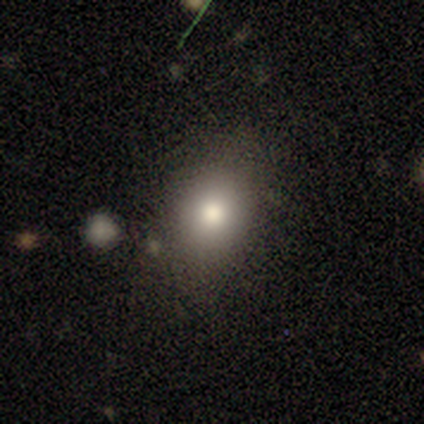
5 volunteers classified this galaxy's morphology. Overall: smooth (80%). How rounded: round (50%, tied with in between). Merging: none (100%).